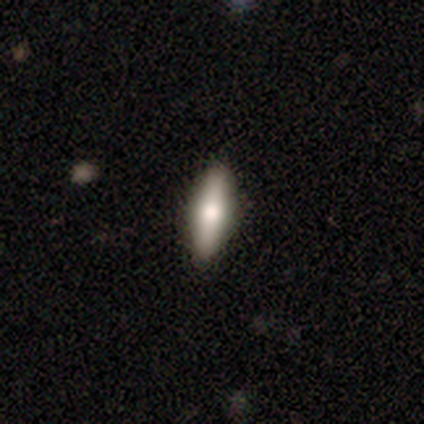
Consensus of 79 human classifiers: A smooth galaxy with no disk features (66%) that is cigar-shaped (50%).

Vote fractions:
- Smooth or featured? smooth: 66% / featured or disk: 29% / star or artifact: 5%
- How rounded? cigar-shaped: 50% / in between: 48% / round: 2%
- Merging? none: 51% / merger: 3% / minor disturbance: 0% / major disturbance: 0%